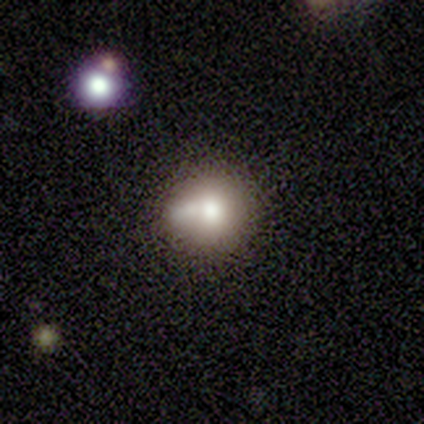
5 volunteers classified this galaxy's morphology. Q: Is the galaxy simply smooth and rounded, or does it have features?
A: featured or disk — 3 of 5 (60%).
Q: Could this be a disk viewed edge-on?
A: no — 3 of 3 (100%).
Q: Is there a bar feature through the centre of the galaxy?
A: no — 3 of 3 (100%).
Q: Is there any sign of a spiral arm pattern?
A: no — 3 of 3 (100%).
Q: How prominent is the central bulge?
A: moderate — 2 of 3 (67%).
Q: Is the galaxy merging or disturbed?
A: none — 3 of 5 (60%).